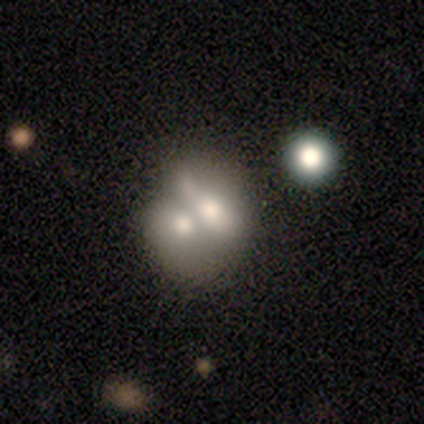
Morphology: type=smooth (63%); roundness=in between (58%); merging=merger (72%).